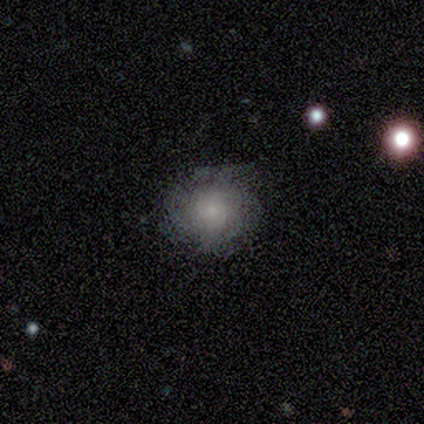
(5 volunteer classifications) Volunteers were most divided on "smooth or featured": smooth: 60%, featured or disk: 40%, star or artifact: 0%. More confident: how rounded — round (100%); merging — minor disturbance (60%).